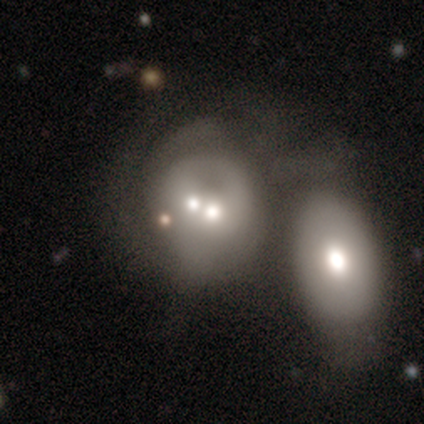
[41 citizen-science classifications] Smooth or featured? featured or disk (54%)
Edge-on disk? no (100%)
Bar? no (95%)
Spiral arms? no (77%)
Bulge size? moderate (68%)
Merging? merger (80%)